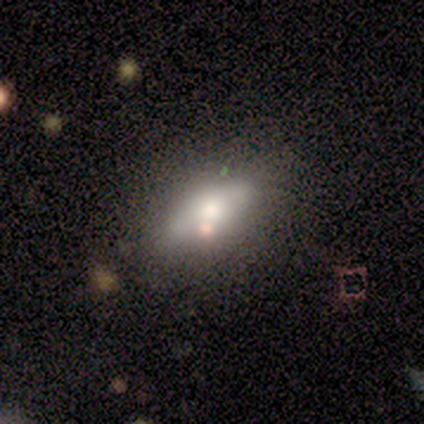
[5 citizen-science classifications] This is likely a smooth galaxy (60%). How rounded: clearly in between (100%). Merging: clearly none (80%).